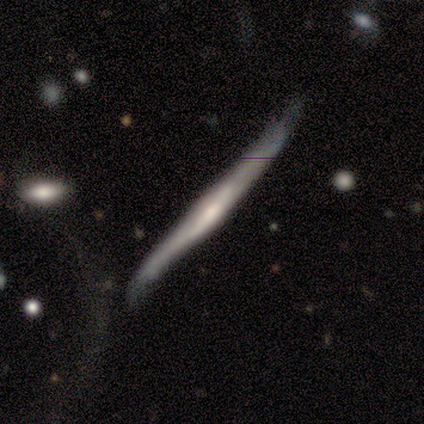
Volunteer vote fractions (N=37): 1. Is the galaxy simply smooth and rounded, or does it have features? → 70% featured or disk, 30% smooth, 0% star or artifact.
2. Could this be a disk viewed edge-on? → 85% yes, 15% no.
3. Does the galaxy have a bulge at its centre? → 59% rounded, 23% boxy, 18% none.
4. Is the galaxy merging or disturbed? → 38% none, 27% minor disturbance, 5% merger, 3% major disturbance.